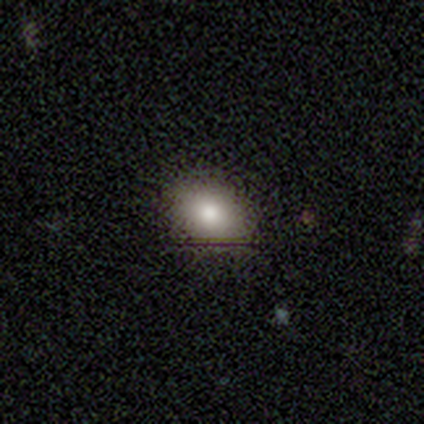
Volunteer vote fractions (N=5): A smooth galaxy with no disk features (100%) that is in between round and cigar-shaped (80%).

Vote fractions:
- Smooth or featured? smooth: 100% / featured or disk: 0% / star or artifact: 0%
- How rounded? in between: 80% / round: 20% / cigar-shaped: 0%
- Merging? none: 100% / minor disturbance: 0% / major disturbance: 0% / merger: 0%